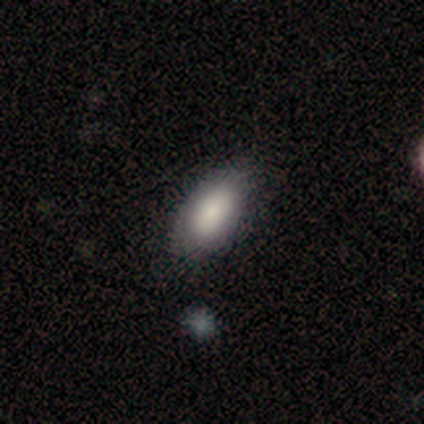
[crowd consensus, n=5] Smooth or featured? smooth (100%)
How rounded? in between (100%)
Merging? none (60%)